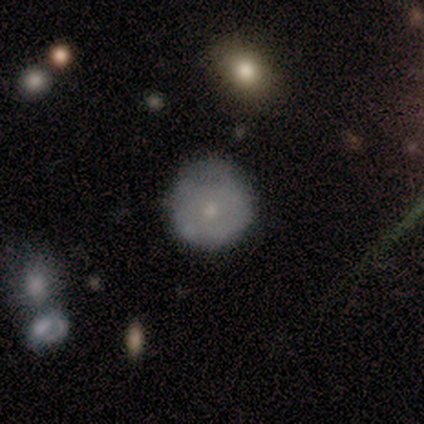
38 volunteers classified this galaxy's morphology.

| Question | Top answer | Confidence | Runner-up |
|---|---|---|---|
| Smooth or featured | smooth | 53% | featured or disk (42%) |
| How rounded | round | 85% | in between (15%) |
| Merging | none | 72% | minor disturbance (25%) |